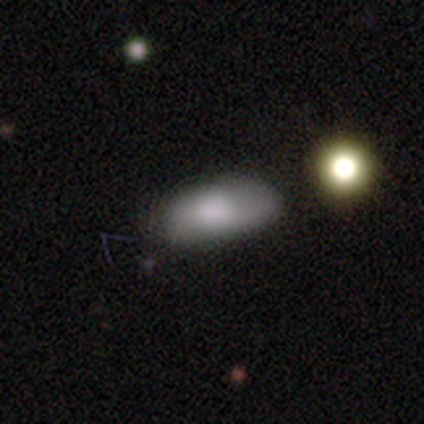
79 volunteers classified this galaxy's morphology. A smooth galaxy with no disk features (90%) that is in between round and cigar-shaped (89%).

Vote fractions:
- Smooth or featured? smooth: 90% / star or artifact: 6% / featured or disk: 4%
- How rounded? in between: 89% / cigar-shaped: 8% / round: 3%
- Merging? none: 39% / minor disturbance: 11% / merger: 8% / major disturbance: 0%